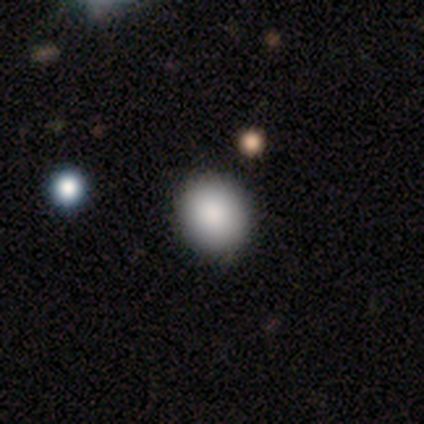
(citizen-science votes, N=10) smooth_or_featured: smooth (p=0.70) [alt: star or artifact p=0.30]
how_rounded: round (p=0.71) [alt: in between p=0.29]
merging: none (p=0.86) [alt: minor disturbance p=0.14]